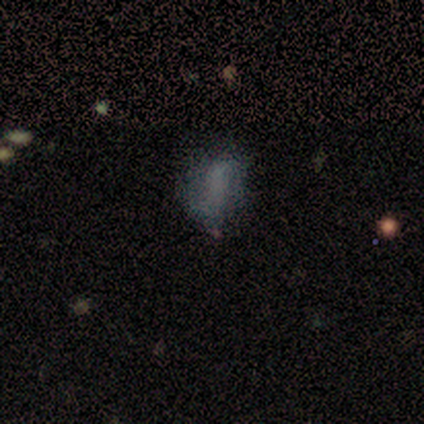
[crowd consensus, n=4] smooth-or-featured: smooth: 50% | featured or disk: 25% | star or artifact: 25%
  how-rounded: in between: 50% (tied) | cigar-shaped: 50% (tied) | round: 0%
  merging: none: 33% (tied) | minor disturbance: 33% (tied) | major disturbance: 33% (tied) | merger: 0%